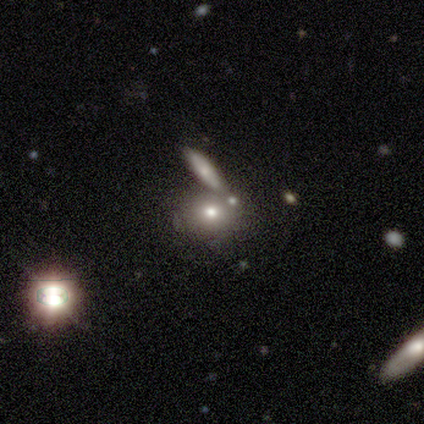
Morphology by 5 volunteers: Smooth or featured? 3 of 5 (60%) said smooth. How rounded? 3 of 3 (100%) said round. Merging? 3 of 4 (75%) said none.